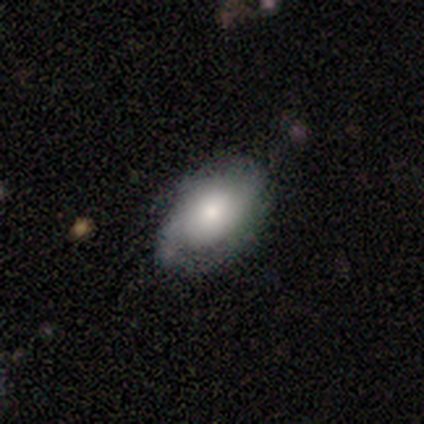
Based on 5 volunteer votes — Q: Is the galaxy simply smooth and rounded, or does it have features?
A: smooth — 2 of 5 (40%, tied with featured or disk).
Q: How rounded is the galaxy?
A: round — 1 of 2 (50%, tied with in between).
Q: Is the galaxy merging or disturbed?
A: minor disturbance — 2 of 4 (50%).